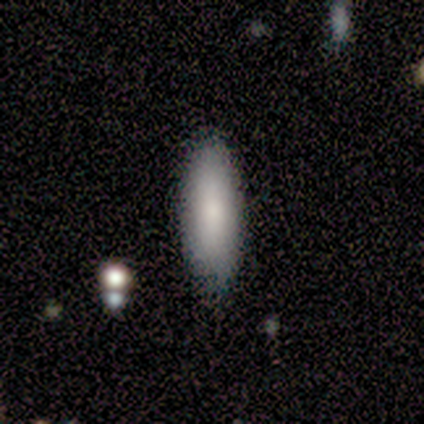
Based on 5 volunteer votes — A smooth galaxy with no disk features (80%) that is in between round and cigar-shaped (75%).

Vote fractions:
- Smooth or featured? smooth: 80% / star or artifact: 20% / featured or disk: 0%
- How rounded? in between: 75% / cigar-shaped: 25% / round: 0%
- Merging? none: 100% / minor disturbance: 0% / major disturbance: 0% / merger: 0%